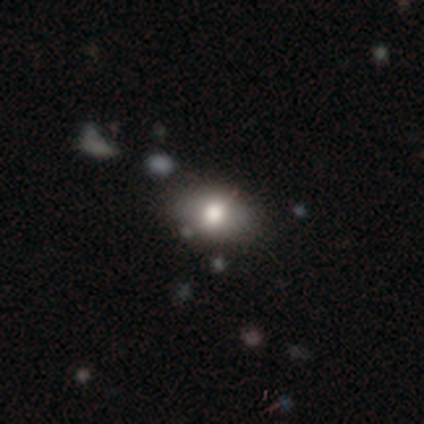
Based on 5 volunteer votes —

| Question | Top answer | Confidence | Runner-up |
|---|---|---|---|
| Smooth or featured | smooth | 80% | star or artifact (20%) |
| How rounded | in between | 100% | — |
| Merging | none | 75% | merger (25%) |